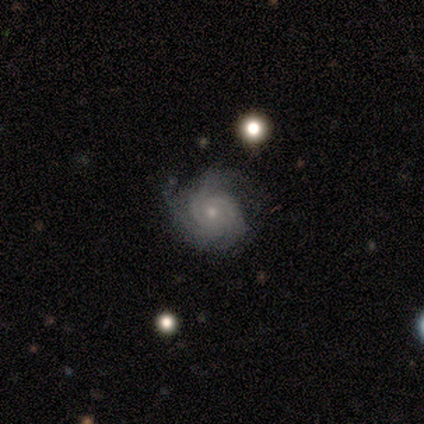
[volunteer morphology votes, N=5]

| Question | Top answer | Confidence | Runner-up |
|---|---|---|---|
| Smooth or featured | featured or disk | 100% | — |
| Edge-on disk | no | 100% | — |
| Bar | no | 100% | — |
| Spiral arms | yes | 80% | no (20%) |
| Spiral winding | tight | 50% | tied: medium (50%) |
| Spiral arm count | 2 | 50% | tied: 3 (50%) |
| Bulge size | small | 60% | moderate (40%) |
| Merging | minor disturbance | 80% | major disturbance (20%) |